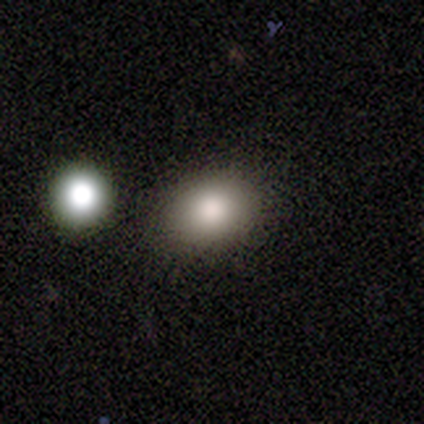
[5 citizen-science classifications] A smooth galaxy with no disk features (100%) that is in between round and cigar-shaped (60%).

Vote fractions:
- Smooth or featured? smooth: 100% / featured or disk: 0% / star or artifact: 0%
- How rounded? in between: 60% / round: 40% / cigar-shaped: 0%
- Merging? none: 40% (tied) / minor disturbance: 40% (tied) / merger: 20% / major disturbance: 0%